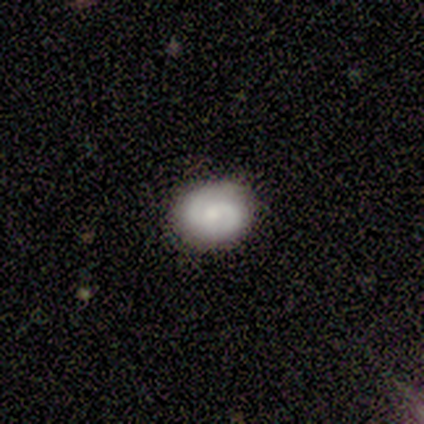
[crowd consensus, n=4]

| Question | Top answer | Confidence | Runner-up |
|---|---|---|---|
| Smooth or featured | smooth | 50% | featured or disk (25%) |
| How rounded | round | 100% | — |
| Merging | none | 67% | minor disturbance (33%) |